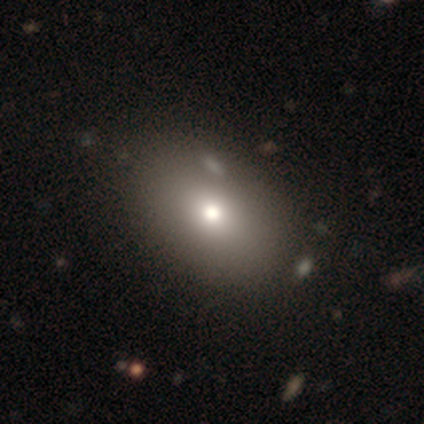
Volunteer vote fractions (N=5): A smooth galaxy with no disk features (60%) that is in between round and cigar-shaped (100%). Merging: none (100%).